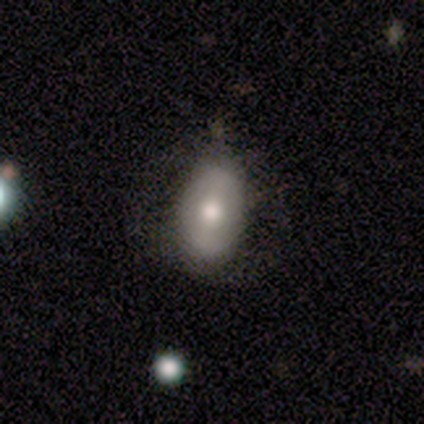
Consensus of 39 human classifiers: Overall: smooth (59%; featured or disk 38%). How rounded: in between (96%). Merging: none (45%; minor disturbance 21%).